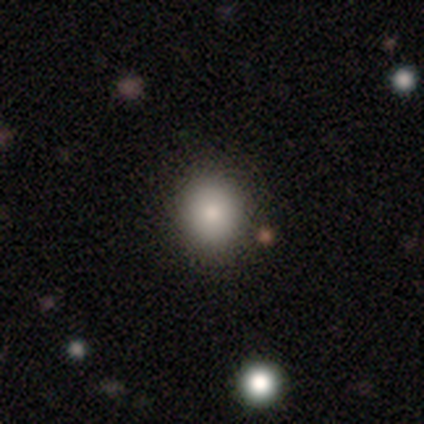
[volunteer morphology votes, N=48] Q: Smooth or featured?
A: smooth (77%); runner-up: star or artifact (15%)
Q: How rounded?
A: round (78%); runner-up: in between (22%)
Q: Merging?
A: none (88%); runner-up: minor disturbance (7%)